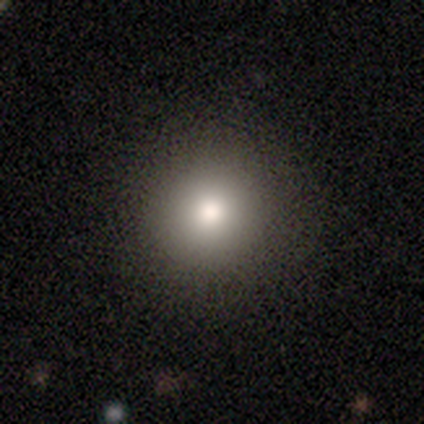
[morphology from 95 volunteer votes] A smooth galaxy with no disk features (77%) that is round (97%).

Vote fractions:
- Smooth or featured? smooth: 77% / star or artifact: 17% / featured or disk: 6%
- How rounded? round: 97% / in between: 3% / cigar-shaped: 0%
- Merging? none: 92% / minor disturbance: 5% / major disturbance: 1% / merger: 1%